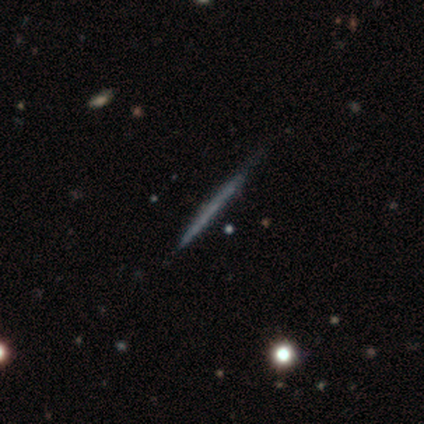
smooth_or_featured: featured or disk (p=0.55) [alt: smooth p=0.42]
disk_edge_on: yes (p=0.95) [alt: no p=0.05]
edge_on_bulge: none (p=1.00)
merging: none (p=0.86) [alt: minor disturbance p=0.14]